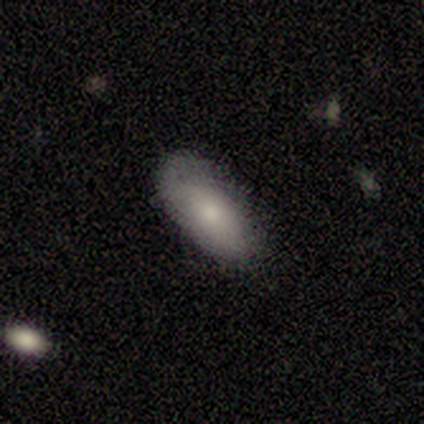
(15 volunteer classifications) Smooth or featured?
  - smooth: 67% *
  - featured or disk: 27%
  - star or artifact: 7%
How rounded?
  - in between: 80% *
  - cigar-shaped: 20%
  - round: 0%
Merging?
  - none: 79% *
  - minor disturbance: 21%
  - major disturbance: 0%
  - merger: 0%